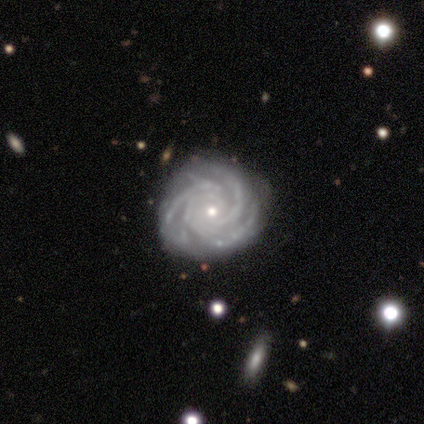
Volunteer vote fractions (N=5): smooth-or-featured: featured or disk: 100% | smooth: 0% | star or artifact: 0%
  disk-edge-on: no: 100% | yes: 0%
    bar: no: 80% | weak: 20% | strong: 0%
    has-spiral-arms: yes: 100% | no: 0%
      spiral-winding: tight: 60% | medium: 40% | loose: 0%
      spiral-arm-count: 3: 60% | 4: 20% | can't tell: 20% | 1: 0% | 2: 0% | more than 4: 0%
    bulge-size: small: 80% | moderate: 20% | dominant: 0% | large: 0% | none: 0%
  merging: none: 100% | minor disturbance: 0% | major disturbance: 0% | merger: 0%